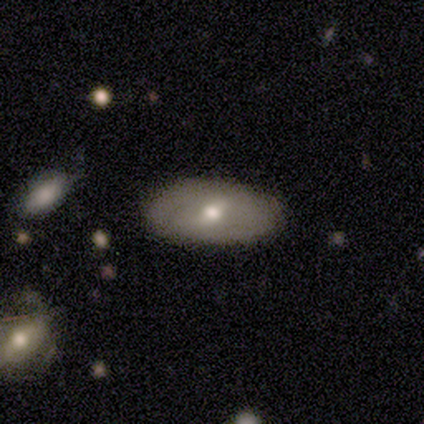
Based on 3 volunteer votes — A featured or disk galaxy (67%) viewed edge-on (50%, tied with no) with a rounded central bulge (100%). Merging: none (67%).